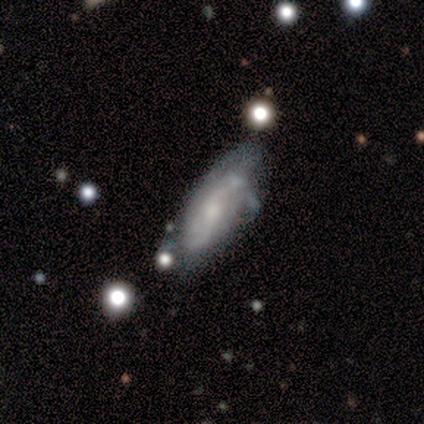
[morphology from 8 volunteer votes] Overall: featured or disk (62%; smooth 38%). Edge-on disk: no (100%). Bar: no (80%). Spiral arms: yes (80%). Spiral arm count: can't tell (75%). Spiral winding: tight (75%). Bulge size: small (80%). Merging: none (50%; minor disturbance 38%).